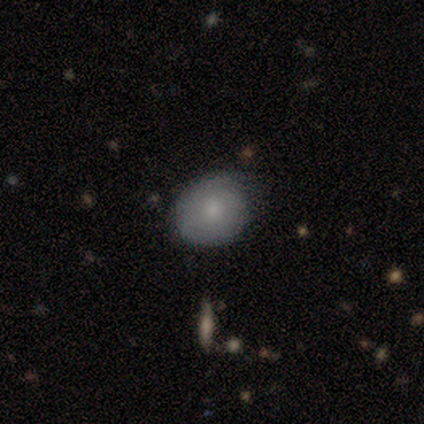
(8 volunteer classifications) Morphology: type=smooth (88%); roundness=round (71%); merging=none (62%).